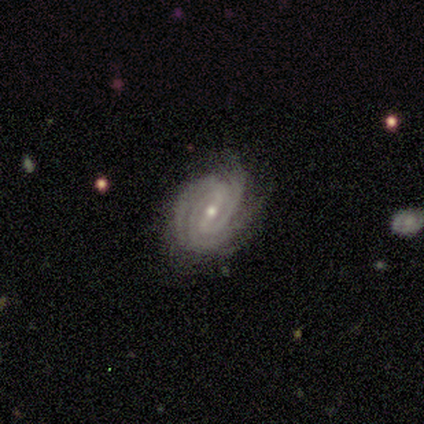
A featured or disk galaxy (100%) with a weak bar (40%, tied with no), 3 (60%) tight (100%) spiral arms (100%) and a moderate central bulge (60%). Merging: none (80%).